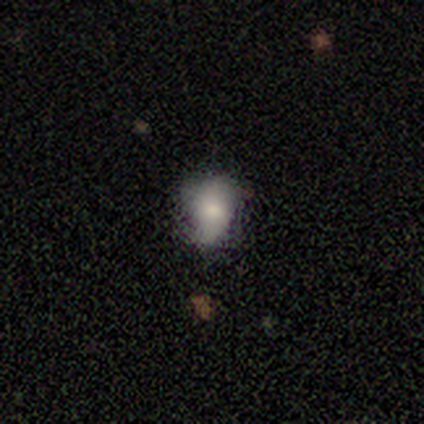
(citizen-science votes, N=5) smooth 80%, featured or disk 20%, star or artifact 0%. Down the decision tree: how rounded — in between (75%); merging — none (60%).